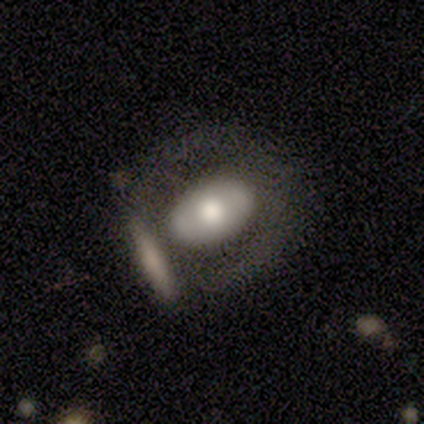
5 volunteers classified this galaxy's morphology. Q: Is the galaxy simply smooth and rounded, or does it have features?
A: featured or disk — 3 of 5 (60%).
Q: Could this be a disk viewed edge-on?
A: no — 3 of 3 (100%).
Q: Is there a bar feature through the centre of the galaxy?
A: no — 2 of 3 (67%).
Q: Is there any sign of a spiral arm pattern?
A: no — 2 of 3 (67%).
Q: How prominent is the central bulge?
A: moderate — 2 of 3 (67%).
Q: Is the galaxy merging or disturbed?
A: none — 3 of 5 (60%).